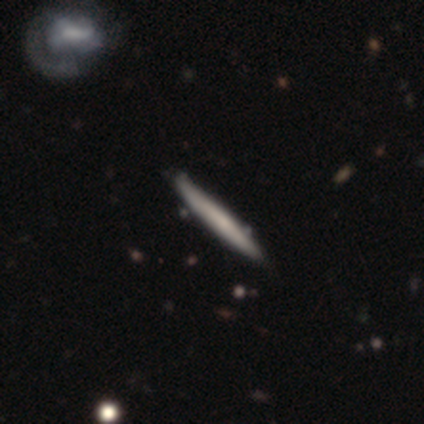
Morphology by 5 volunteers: A smooth galaxy with no disk features (80%) that is cigar-shaped (75%). Merging: none (60%).